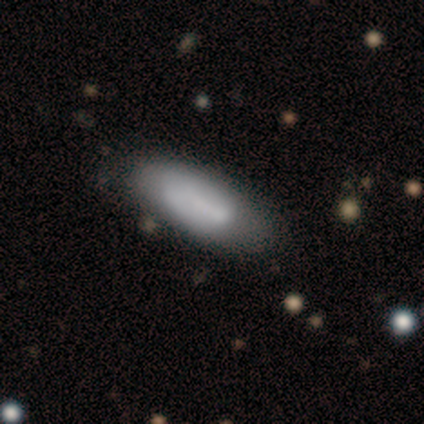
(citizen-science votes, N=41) This appears to be a smooth galaxy with no disk features (76%) that is in between round and cigar-shaped (77%). Merging: none (78%).